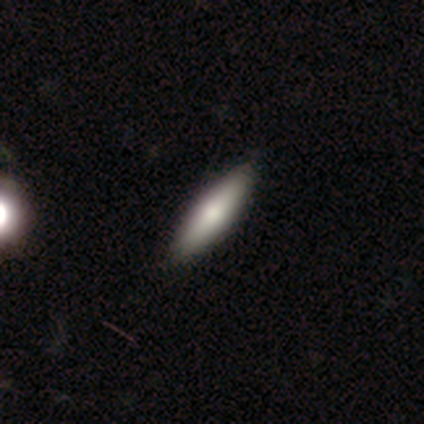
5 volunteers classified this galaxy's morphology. Smooth or featured? smooth (60%)
How rounded? cigar-shaped (100%)
Merging? none (80%)